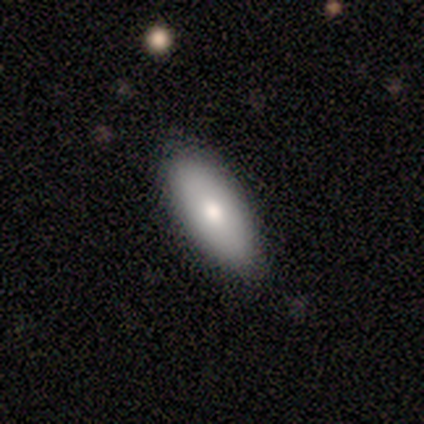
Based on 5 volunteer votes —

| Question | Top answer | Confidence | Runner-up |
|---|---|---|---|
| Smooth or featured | smooth | 60% | featured or disk (40%) |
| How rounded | in between | 100% | — |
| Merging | none | 100% | — |